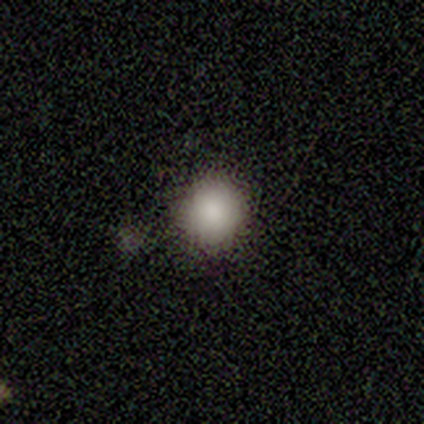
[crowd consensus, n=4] Smooth or featured? smooth (100%)
How rounded? round (50%, tied with in between)
Merging? none (100%)